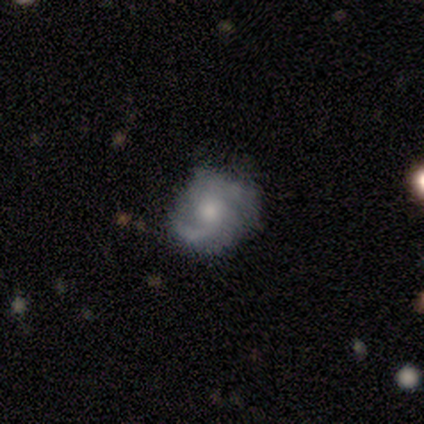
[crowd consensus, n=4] Q: Smooth or featured?
A: featured or disk (100%)
Q: Edge-on disk?
A: no (100%)
Q: Bar?
A: weak (50%); tied with: no (50%)
Q: Spiral arms?
A: yes (100%)
Q: Spiral winding?
A: loose (50%); runner-up: tight (25%)
Q: Spiral arm count?
A: 2 (50%); runner-up: 1 (25%)
Q: Bulge size?
A: moderate (75%); runner-up: small (25%)
Q: Merging?
A: none (75%); runner-up: minor disturbance (25%)